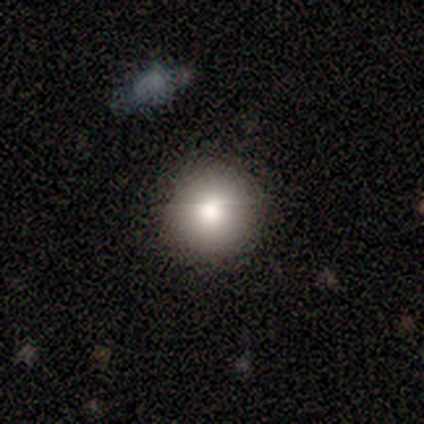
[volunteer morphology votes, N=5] This is clearly a smooth galaxy (100%). How rounded: clearly round (100%). Merging: clearly none (100%).